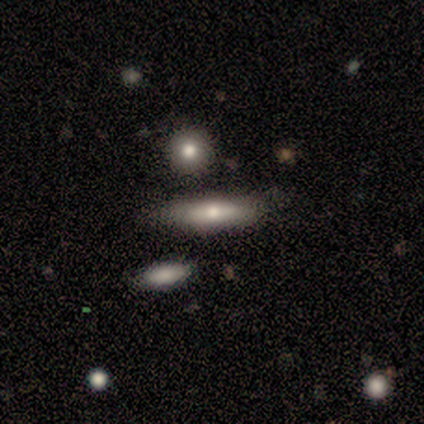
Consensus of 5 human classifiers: Morphology: type=featured or disk (60%); edge-on=yes (67%); edge-on bulge=rounded (100%); merging=none (80%).